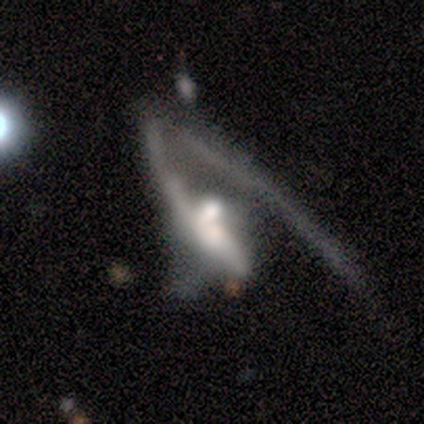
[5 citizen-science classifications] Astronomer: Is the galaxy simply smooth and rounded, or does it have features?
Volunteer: featured or disk — 100%.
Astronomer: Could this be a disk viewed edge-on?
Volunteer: no — 100%.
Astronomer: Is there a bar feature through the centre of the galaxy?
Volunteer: weak — 40%, tied with no at 40%.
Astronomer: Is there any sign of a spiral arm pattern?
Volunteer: yes — 100%.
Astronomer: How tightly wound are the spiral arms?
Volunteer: loose — 80%.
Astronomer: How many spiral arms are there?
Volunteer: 1 — 100%.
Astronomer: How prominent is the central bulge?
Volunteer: large — 40%, tied with moderate at 40%.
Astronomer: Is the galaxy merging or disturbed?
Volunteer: major disturbance — 100%.